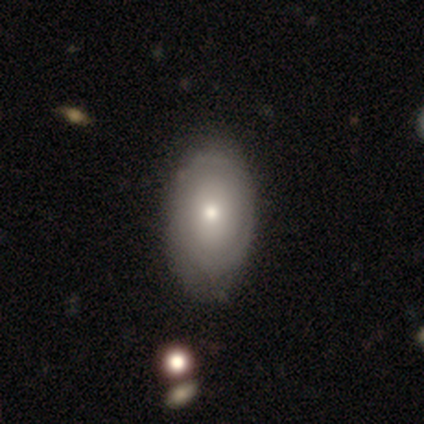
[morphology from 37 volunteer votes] A smooth galaxy with no disk features (62%) that is in between round and cigar-shaped (83%). Merging: none (47%).